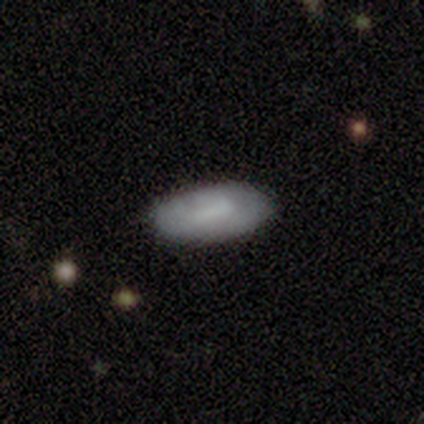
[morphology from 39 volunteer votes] Smooth or featured? smooth (79%)
How rounded? in between (94%)
Merging? none (70%)